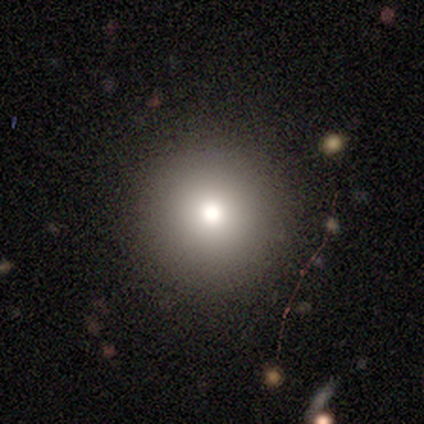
smooth 69%, star or artifact 16%, featured or disk 14%. Down the decision tree: how rounded — round (97%); merging — none (94%).